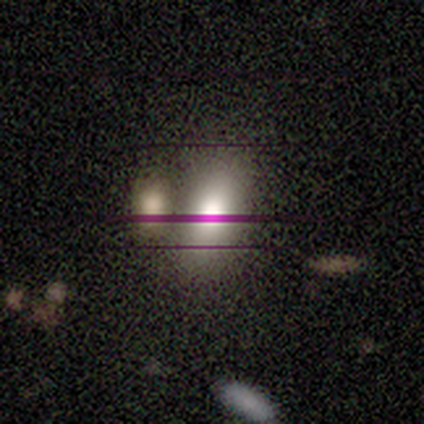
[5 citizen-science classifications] smooth-or-featured: smooth: 60% | star or artifact: 40% | featured or disk: 0%
  how-rounded: in between: 100% | round: 0% | cigar-shaped: 0%
  merging: none: 33% (tied) | minor disturbance: 33% (tied) | merger: 33% (tied) | major disturbance: 0%